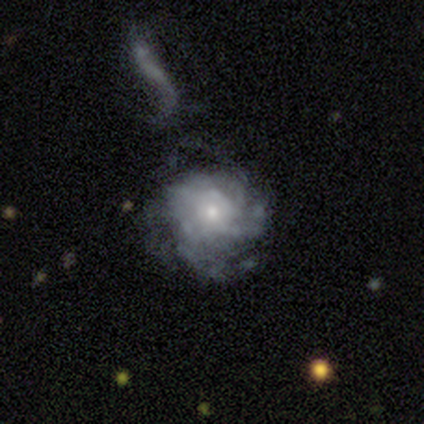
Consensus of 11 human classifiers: Overall: featured or disk (73%). Edge-on disk: no (100%). Bar: no (75%). Spiral arms: yes (100%). Spiral arm count: 3 (38%; 1 25%). Spiral winding: medium (75%). Bulge size: small (62%; moderate 38%). Merging: none (50%; minor disturbance 30%).